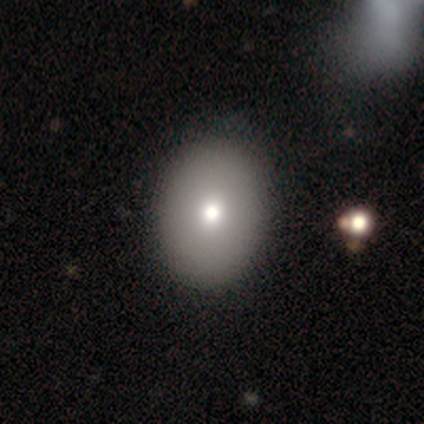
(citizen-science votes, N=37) Smooth or featured?
  - smooth: 86% *
  - featured or disk: 14%
  - star or artifact: 0%
How rounded?
  - in between: 62% *
  - round: 38%
  - cigar-shaped: 0%
Merging?
  - none: 70% *
  - minor disturbance: 5%
  - major disturbance: 0%
  - merger: 0%